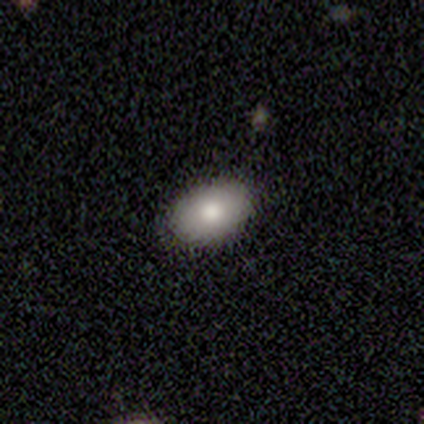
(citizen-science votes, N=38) A smooth galaxy with no disk features (82%) that is in between round and cigar-shaped (81%).

Vote fractions:
- Smooth or featured? smooth: 82% / featured or disk: 13% / star or artifact: 5%
- How rounded? in between: 81% / round: 13% / cigar-shaped: 6%
- Merging? none: 97% / minor disturbance: 3% / major disturbance: 0% / merger: 0%